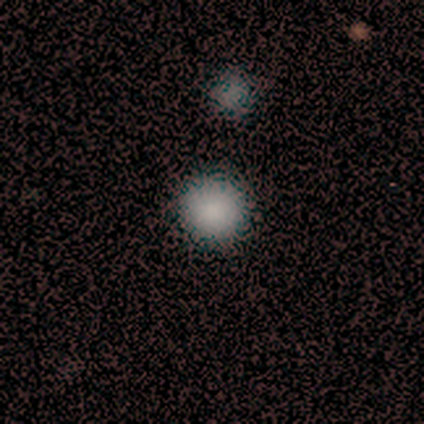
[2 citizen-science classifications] Morphology: type=smooth (100%); roundness=round (100%); merging=none (100%).